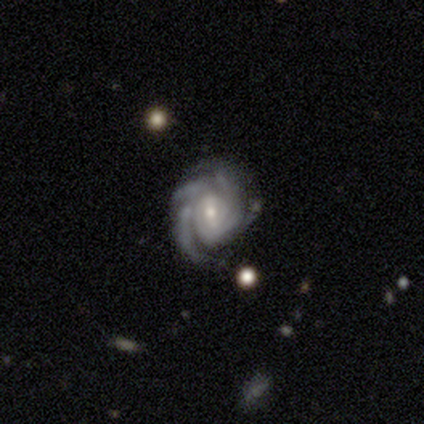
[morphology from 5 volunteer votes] Q: Smooth or featured?
A: featured or disk (100%)
Q: Edge-on disk?
A: no (100%)
Q: Bar?
A: no (60%); runner-up: weak (40%)
Q: Spiral arms?
A: yes (100%)
Q: Spiral winding?
A: tight (80%); runner-up: loose (20%)
Q: Spiral arm count?
A: can't tell (60%); runner-up: 3 (20%)
Q: Bulge size?
A: moderate (60%); runner-up: small (40%)
Q: Merging?
A: none (80%); runner-up: major disturbance (20%)